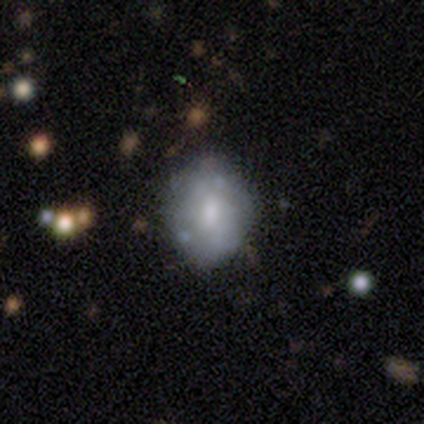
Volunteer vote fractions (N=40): Overall: smooth (65%; featured or disk 32%). How rounded: in between (65%; round 35%). Merging: none (67%).